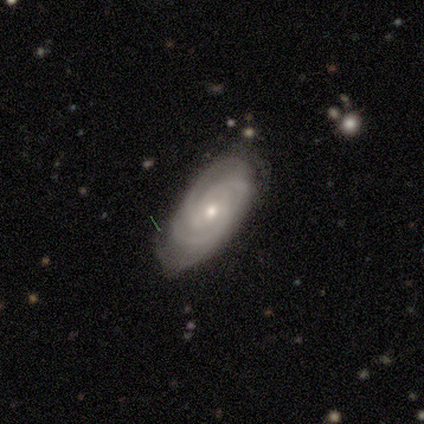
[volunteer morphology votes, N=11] Smooth or featured?
  - featured or disk: 91% *
  - smooth: 9%
  - star or artifact: 0%
Edge-on disk?
  - no: 100% *
  - yes: 0%
Bar?
  - no: 80% *
  - weak: 20%
  - strong: 0%
Spiral arms?
  - yes: 100% *
  - no: 0%
Spiral winding?
  - tight: 60% *
  - medium: 40%
  - loose: 0%
Spiral arm count?
  - 3: 40% * (tied)
  - 4: 40% * (tied)
  - can't tell: 20%
  - 1: 0%
  - 2: 0%
  - more than 4: 0%
Bulge size?
  - small: 60% *
  - moderate: 40%
  - dominant: 0%
  - large: 0%
  - none: 0%
Merging?
  - none: 82% *
  - minor disturbance: 9%
  - major disturbance: 9%
  - merger: 0%